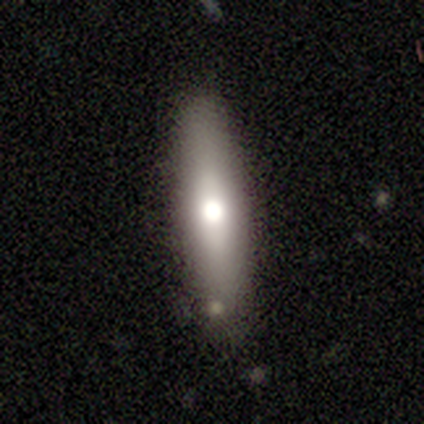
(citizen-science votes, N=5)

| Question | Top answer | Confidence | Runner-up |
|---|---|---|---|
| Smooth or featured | smooth | 80% | featured or disk (20%) |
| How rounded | in between | 50% | tied: cigar-shaped (50%) |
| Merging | none | 80% | minor disturbance (20%) |